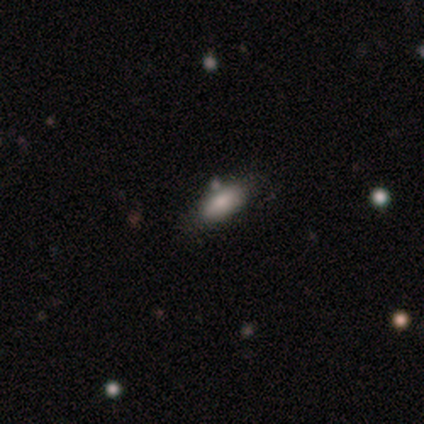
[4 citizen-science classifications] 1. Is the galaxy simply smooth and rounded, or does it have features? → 100% smooth, 0% featured or disk, 0% star or artifact.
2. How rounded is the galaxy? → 75% in between, 25% cigar-shaped, 0% round.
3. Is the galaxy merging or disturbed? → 75% none, 25% minor disturbance, 0% major disturbance, 0% merger.